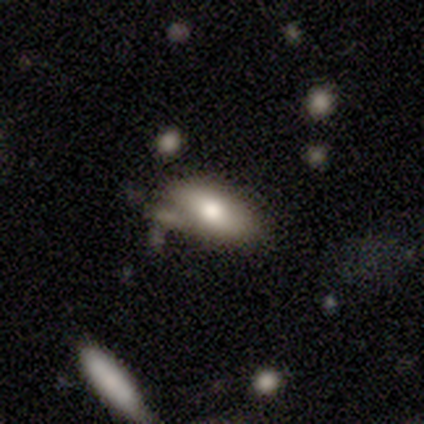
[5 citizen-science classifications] Smooth or featured? 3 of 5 (60%) said smooth. How rounded? 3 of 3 (100%) said in between. Merging? 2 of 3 (67%) said none.